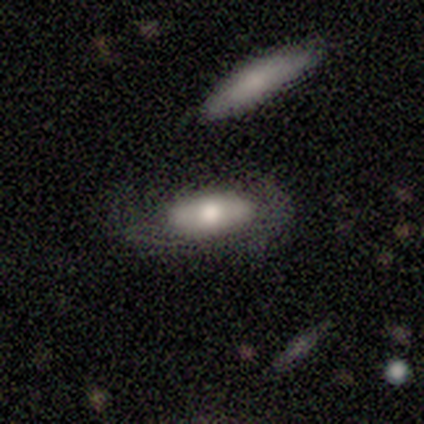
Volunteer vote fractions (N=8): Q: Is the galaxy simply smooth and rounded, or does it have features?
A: smooth — 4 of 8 (50%, tied with featured or disk).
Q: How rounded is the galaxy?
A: in between — 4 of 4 (100%).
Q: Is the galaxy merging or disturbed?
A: minor disturbance — 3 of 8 (38%, tied with major disturbance).